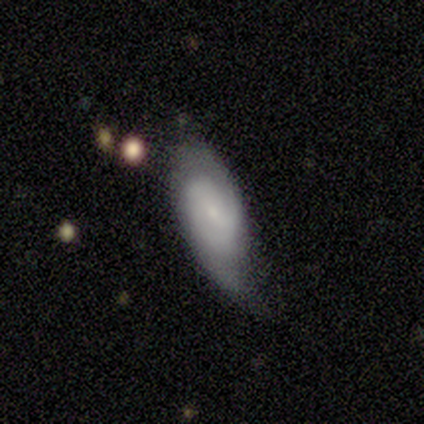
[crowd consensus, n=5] smooth-or-featured: featured or disk: 80% | smooth: 20% | star or artifact: 0%
  disk-edge-on: no: 75% | yes: 25%
    bar: weak: 100% | strong: 0% | no: 0%
    has-spiral-arms: yes: 67% | no: 33%
      spiral-winding: medium: 50% (tied) | loose: 50% (tied) | tight: 0%
      spiral-arm-count: 2: 50% (tied) | can't tell: 50% (tied) | 1: 0% | 3: 0% | 4: 0% | more than 4: 0%
    bulge-size: small: 100% | dominant: 0% | large: 0% | moderate: 0% | none: 0%
  merging: minor disturbance: 40% | none: 20% | major disturbance: 20% | merger: 20%